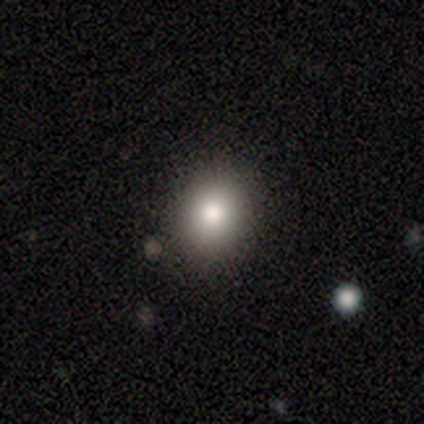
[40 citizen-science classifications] This appears to be a smooth galaxy with no disk features (88%) that is round (60%). Merging: none (92%).